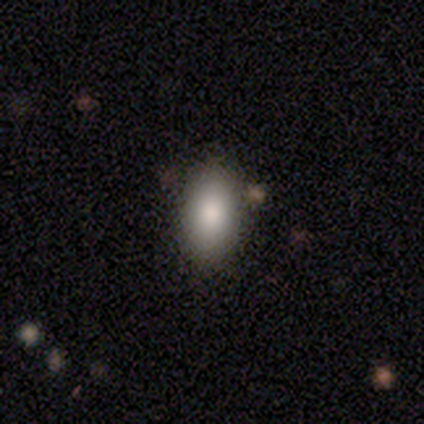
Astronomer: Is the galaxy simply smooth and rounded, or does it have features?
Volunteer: smooth — 100%.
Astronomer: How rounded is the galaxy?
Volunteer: in between — 75%.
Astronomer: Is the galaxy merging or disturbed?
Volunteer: none — 100%.